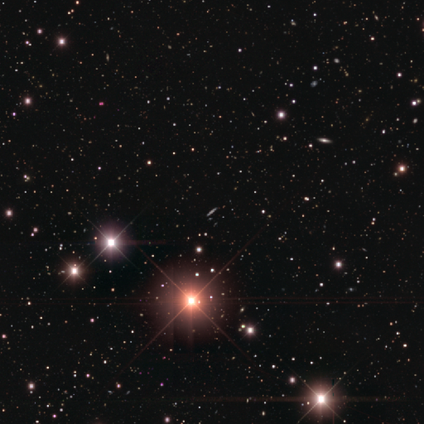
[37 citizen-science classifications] Smooth or featured: star or artifact — 81% (featured or disk — 11%)